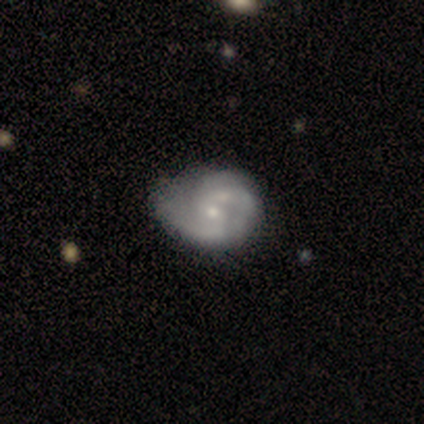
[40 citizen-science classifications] smooth_or_featured: featured or disk (p=0.80) [alt: smooth p=0.12]
disk_edge_on: no (p=1.00)
bar: no (p=0.50) [alt: weak p=0.44]
has_spiral_arms: yes (p=0.97) [alt: no p=0.03]
spiral_winding: medium (p=0.55) [alt: tight p=0.32]
spiral_arm_count: 2 (p=0.68) [alt: can't tell p=0.13]
bulge_size: small (p=0.53) [alt: moderate p=0.44]
merging: none (p=0.32) [alt: merger p=0.24]